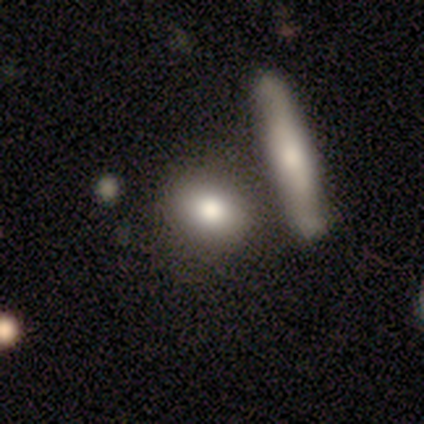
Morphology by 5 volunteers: Overall: smooth (60%; featured or disk 40%). How rounded: in between (67%; cigar-shaped 33%). Merging: none (60%; minor disturbance 20%).